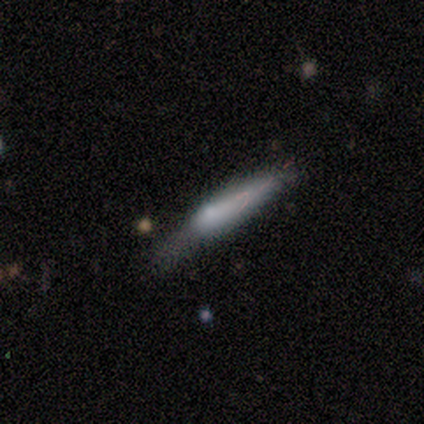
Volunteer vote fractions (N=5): Overall: featured or disk (60%; smooth 40%). Edge-on disk: yes (100%). Edge-on bulge: rounded (100%). Merging: none (60%; minor disturbance 40%).